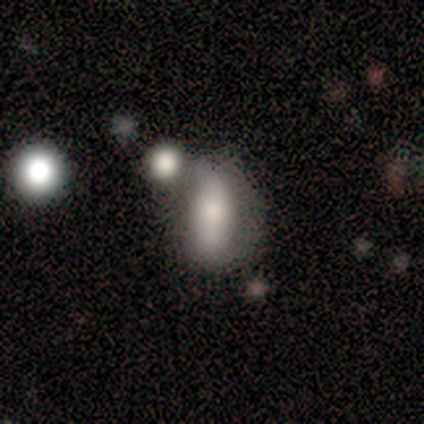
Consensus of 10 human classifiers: smooth-or-featured: smooth: 80% | star or artifact: 20% | featured or disk: 0%
  how-rounded: in between: 88% | round: 12% | cigar-shaped: 0%
  merging: merger: 50% | none: 38% | minor disturbance: 12% | major disturbance: 0%